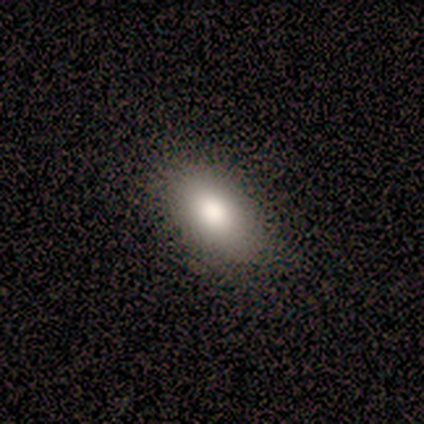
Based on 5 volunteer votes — Morphology: type=smooth (60%); roundness=in between (100%); merging=none (100%).